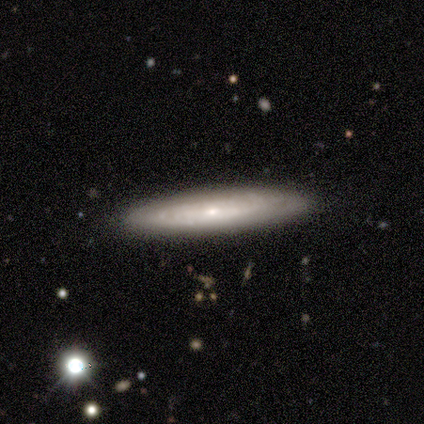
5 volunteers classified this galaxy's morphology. featured or disk 60%, smooth 40%, star or artifact 0%. Down the decision tree: edge-on disk — no (100%); bar — no (67%); spiral arms — yes (100%); spiral arm count — can't tell (100%); spiral winding — tight (100%); bulge size — small (100%); merging — none (100%).